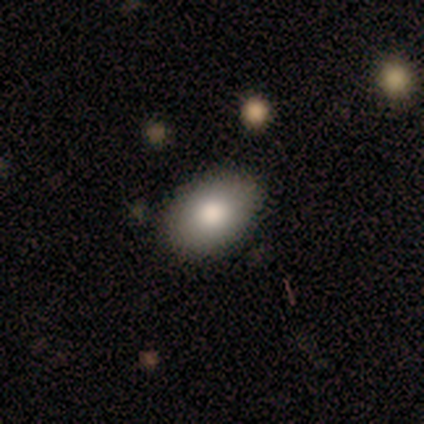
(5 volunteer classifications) smooth 60%, featured or disk 40%, star or artifact 0%. Down the decision tree: how rounded — in between (67%); merging — none (80%).